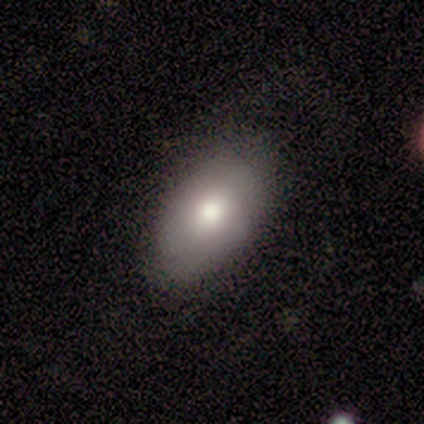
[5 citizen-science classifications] A smooth galaxy with no disk features (100%) that is in between round and cigar-shaped (100%).

Vote fractions:
- Smooth or featured? smooth: 100% / featured or disk: 0% / star or artifact: 0%
- How rounded? in between: 100% / round: 0% / cigar-shaped: 0%
- Merging? none: 80% / minor disturbance: 20% / major disturbance: 0% / merger: 0%